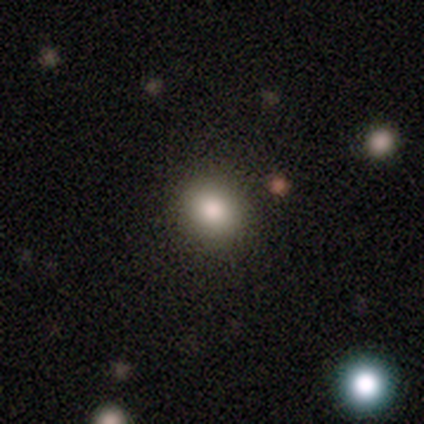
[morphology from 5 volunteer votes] Smooth or featured? 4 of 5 (80%) said smooth. How rounded? 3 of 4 (75%) said round. Merging? 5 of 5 (100%) said none.